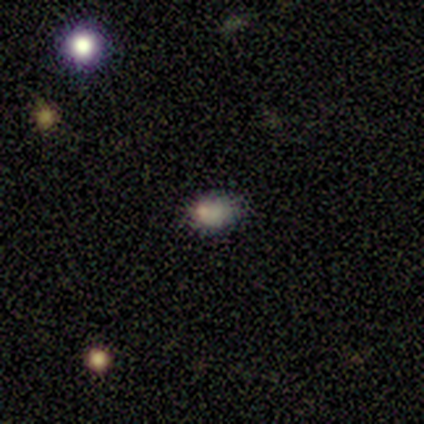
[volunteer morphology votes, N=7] smooth 43% (tied), star or artifact 43% (tied), featured or disk 14%. Down the decision tree: how rounded — round (67%); merging — none (75%).